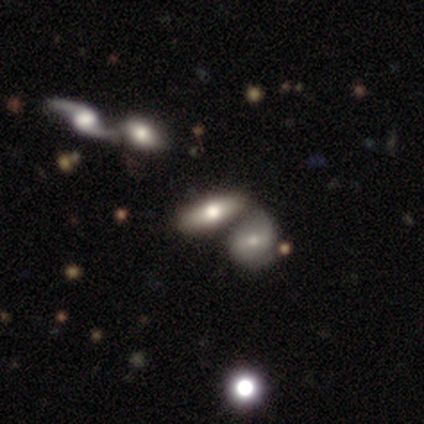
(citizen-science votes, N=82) smooth_or_featured: smooth (p=0.59) [alt: featured or disk p=0.32]
how_rounded: in between (p=0.77) [alt: cigar-shaped p=0.23]
merging: merger (p=0.55) [alt: none p=0.24]